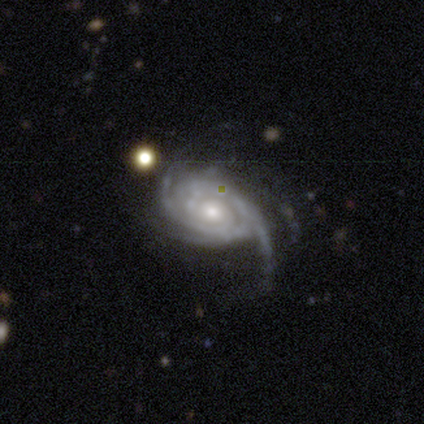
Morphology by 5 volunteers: Smooth or featured? featured or disk (100%)
Edge-on disk? no (100%)
Bar? no (80%)
Spiral arms? yes (100%)
Spiral winding? tight (100%)
Spiral arm count? 3 (40%, tied with 4)
Bulge size? moderate (100%)
Merging? none (80%)